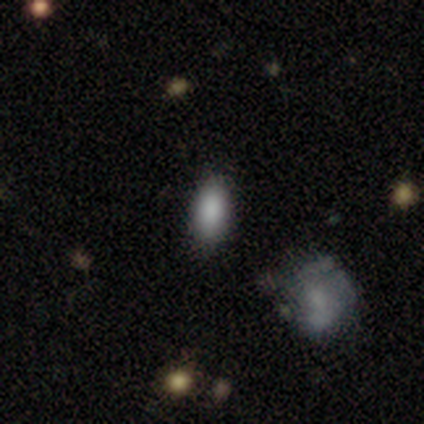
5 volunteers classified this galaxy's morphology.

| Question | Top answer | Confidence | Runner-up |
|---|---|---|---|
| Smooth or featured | smooth | 80% | featured or disk (20%) |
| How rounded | in between | 100% | — |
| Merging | none | 80% | major disturbance (20%) |